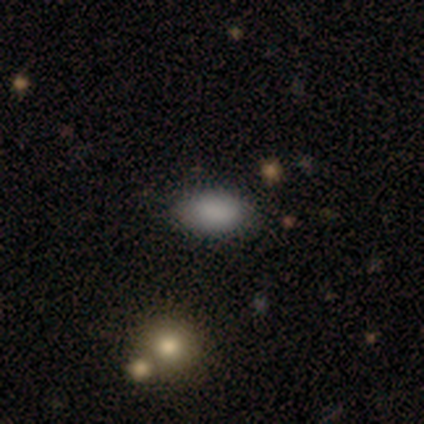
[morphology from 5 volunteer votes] A smooth galaxy with no disk features (80%) that is in between round and cigar-shaped (75%). Merging: none (75%).